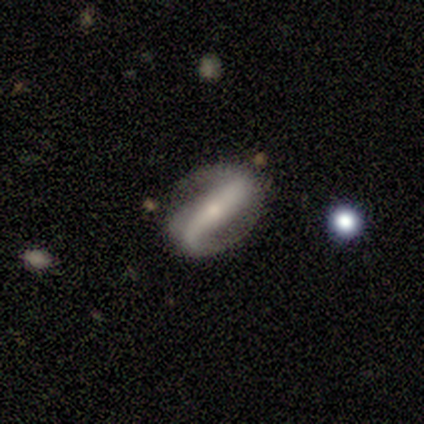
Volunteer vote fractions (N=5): Morphology: type=featured or disk (100%); edge-on=no (80%); bar=strong (50%, tied with weak); spiral arms=yes (75%); winding=loose (67%); arm count=2 (100%); bulge=small (50%); merging=none (100%).